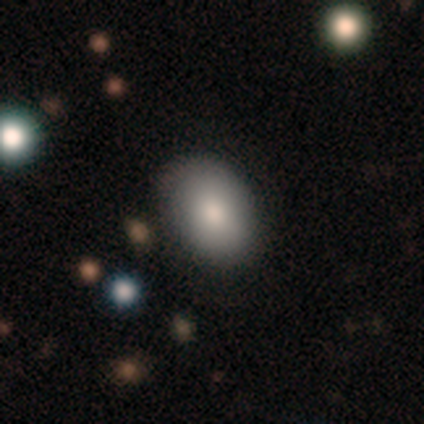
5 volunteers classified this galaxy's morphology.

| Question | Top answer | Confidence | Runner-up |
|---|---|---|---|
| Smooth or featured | smooth | 60% | featured or disk (40%) |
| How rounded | in between | 67% | round (33%) |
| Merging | none | 80% | minor disturbance (20%) |